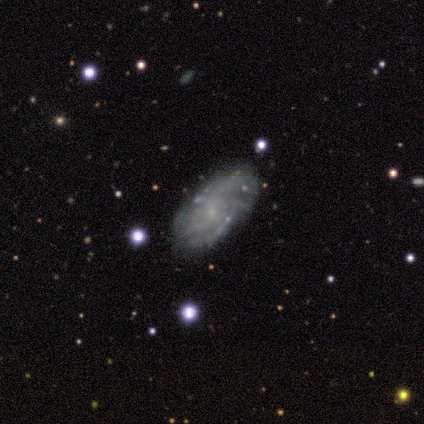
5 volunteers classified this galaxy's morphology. Volunteers were most divided on "spiral winding": medium: 67%, loose: 33%, tight: 0%. More confident: bar — no (100%); spiral arms — yes (100%); merging — none (100%); smooth or featured — featured or disk (80%); edge-on disk — no (75%); spiral arm count — can't tell (67%); bulge size — none (67%).